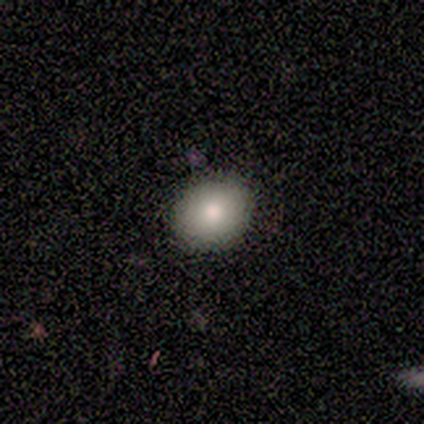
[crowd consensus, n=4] A smooth galaxy with no disk features (50%, tied with star or artifact) that is round (50%, tied with in between). Merging: none (100%).